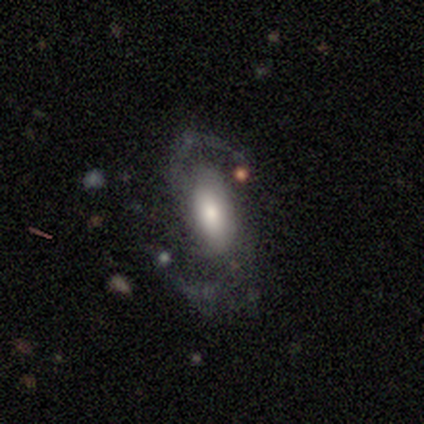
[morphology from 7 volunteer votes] Overall: featured or disk (86%). Edge-on disk: no (100%). Bar: weak (50%; no 33%). Spiral arms: yes (100%). Spiral arm count: 2 (100%). Spiral winding: loose (67%; medium 33%). Bulge size: large (50%; moderate 17%). Merging: none (71%).